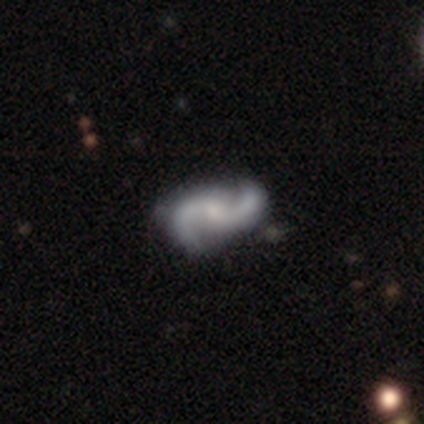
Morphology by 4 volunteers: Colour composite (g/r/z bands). It shows a featured or disk galaxy (100%) with no bar (50%), 2 (100%) medium (75%) spiral arms (100%) and a moderate central bulge (50%, tied with small). Merging: none (100%).